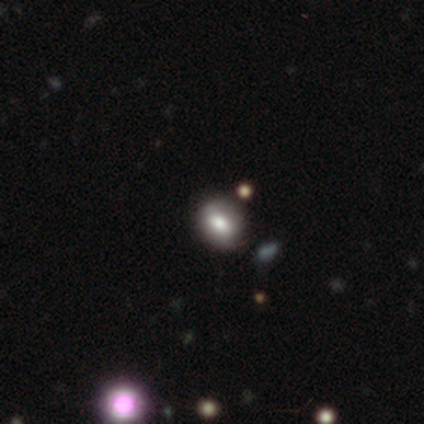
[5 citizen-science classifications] This appears to be a smooth galaxy with no disk features (80%) that is round (50%, tied with in between). Merging: none (80%).